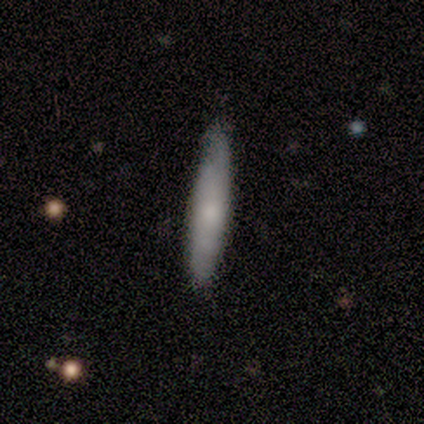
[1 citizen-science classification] Smooth or featured? featured or disk (100%)
Edge-on disk? no (100%)
Bar? no (100%)
Spiral arms? yes (100%)
Spiral winding? medium (100%)
Spiral arm count? can't tell (100%)
Bulge size? moderate (100%)
Merging? none (100%)